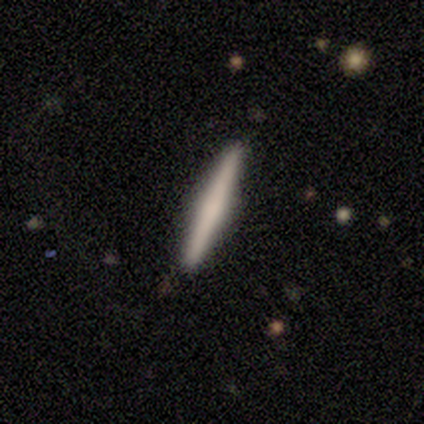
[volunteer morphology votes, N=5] Smooth or featured?
  - featured or disk: 80% *
  - smooth: 20%
  - star or artifact: 0%
Edge-on disk?
  - yes: 100% *
  - no: 0%
Edge-on bulge?
  - none: 50% * (tied)
  - rounded: 50% * (tied)
  - boxy: 0%
Merging?
  - none: 100% *
  - minor disturbance: 0%
  - major disturbance: 0%
  - merger: 0%